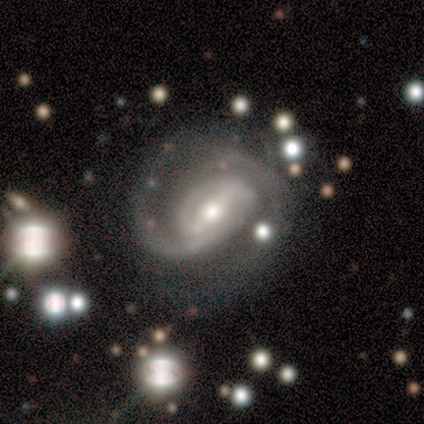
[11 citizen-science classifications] smooth-or-featured: featured or disk: 100% | smooth: 0% | star or artifact: 0%
  disk-edge-on: no: 91% | yes: 9%
    bar: strong: 40% | weak: 30% | no: 30%
    has-spiral-arms: yes: 90% | no: 10%
      spiral-winding: medium: 56% | tight: 44% | loose: 0%
      spiral-arm-count: 2: 67% | 1: 22% | can't tell: 11% | 3: 0% | 4: 0% | more than 4: 0%
    bulge-size: small: 50% | moderate: 40% | large: 10% | dominant: 0% | none: 0%
  merging: none: 55% | major disturbance: 27% | minor disturbance: 18% | merger: 0%